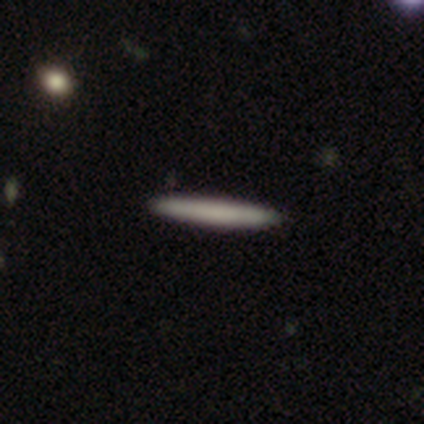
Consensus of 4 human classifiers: A smooth galaxy with no disk features (50%, tied with featured or disk) that is cigar-shaped (100%).

Vote fractions:
- Smooth or featured? smooth: 50% (tied) / featured or disk: 50% (tied) / star or artifact: 0%
- How rounded? cigar-shaped: 100% / round: 0% / in between: 0%
- Merging? none: 75% / minor disturbance: 25% / major disturbance: 0% / merger: 0%